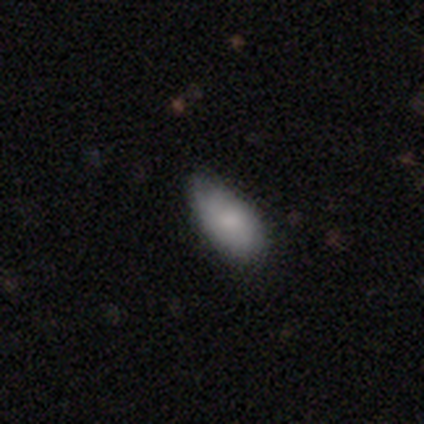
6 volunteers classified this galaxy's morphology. This appears to be a smooth galaxy with no disk features (83%) that is in between round and cigar-shaped (100%). Merging: none (80%).